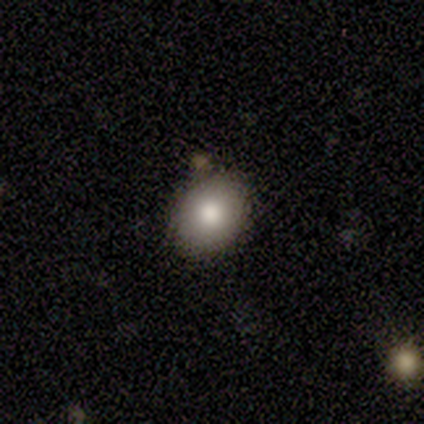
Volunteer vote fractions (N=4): Q: Smooth or featured?
A: smooth (50%); tied with: featured or disk (50%)
Q: How rounded?
A: round (50%); tied with: in between (50%)
Q: Merging?
A: none (100%)